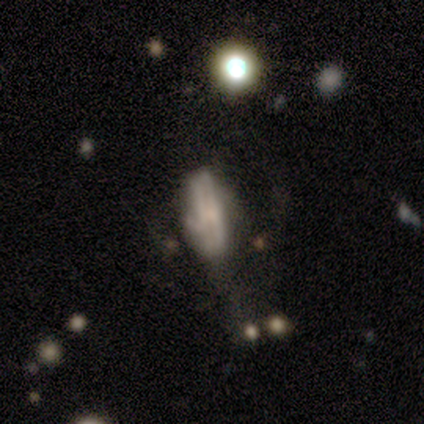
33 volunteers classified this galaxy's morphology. This appears to be a featured or disk galaxy (67%) with no bar (92%), no spiral arms (67%) and a small central bulge (42%, tied with none). Merging: major disturbance (43%).